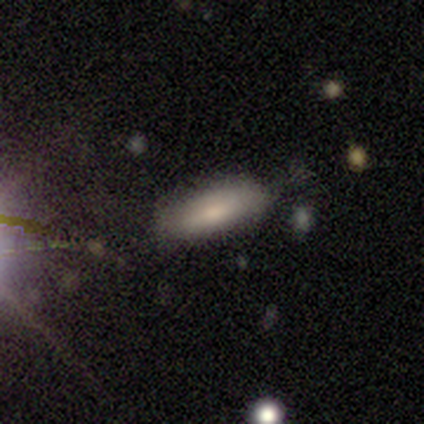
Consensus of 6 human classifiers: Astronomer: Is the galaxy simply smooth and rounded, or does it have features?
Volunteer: smooth — 83%.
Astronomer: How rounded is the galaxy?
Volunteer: in between — 80%.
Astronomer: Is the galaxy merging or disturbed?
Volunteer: none — 83%.